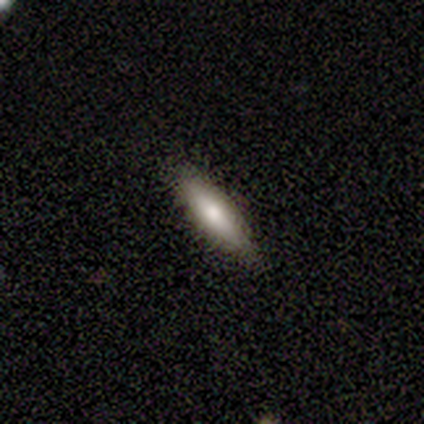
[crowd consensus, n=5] smooth 80%, star or artifact 20%, featured or disk 0%. Down the decision tree: how rounded — cigar-shaped (100%); merging — none (50%, tied with minor disturbance).